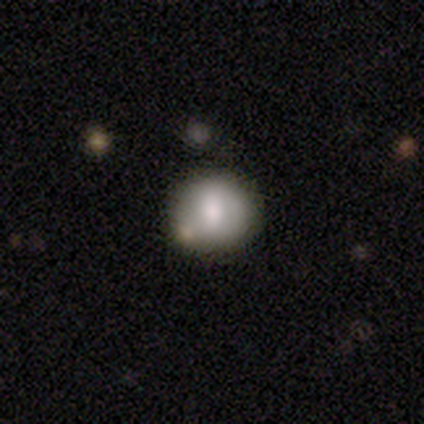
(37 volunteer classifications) smooth_or_featured: smooth (p=0.59) [alt: featured or disk p=0.30]
how_rounded: round (p=0.82) [alt: in between p=0.14]
merging: none (p=0.70) [alt: minor disturbance p=0.21]